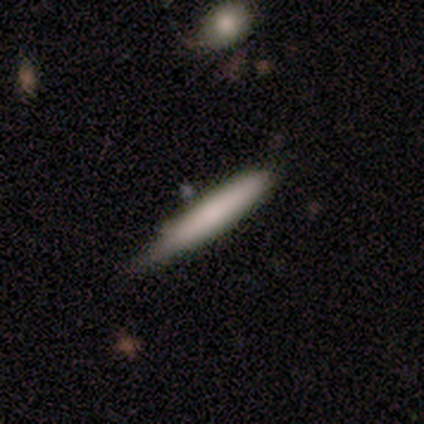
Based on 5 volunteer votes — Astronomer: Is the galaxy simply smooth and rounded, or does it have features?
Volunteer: smooth — 60% (runner-up: featured or disk, 40%).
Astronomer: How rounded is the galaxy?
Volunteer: cigar-shaped — 100%.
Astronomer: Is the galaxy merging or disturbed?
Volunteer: none — 60%.